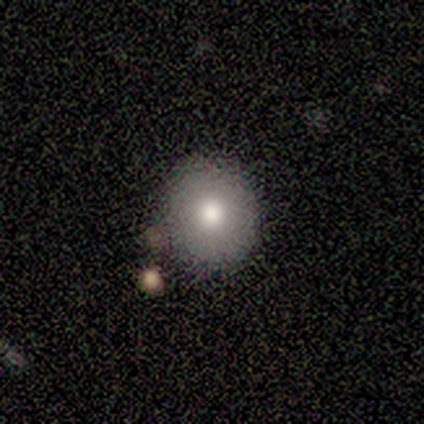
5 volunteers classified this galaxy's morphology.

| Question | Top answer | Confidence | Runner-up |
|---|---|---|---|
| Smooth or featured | smooth | 80% | featured or disk (20%) |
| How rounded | round | 100% | — |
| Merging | none | 80% | merger (20%) |